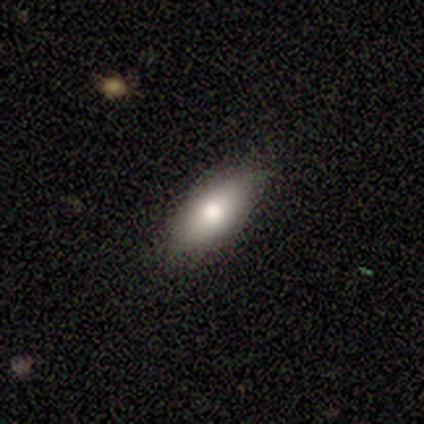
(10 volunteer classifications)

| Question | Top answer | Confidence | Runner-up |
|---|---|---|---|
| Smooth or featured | smooth | 80% | featured or disk (10%) |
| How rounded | in between | 100% | — |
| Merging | none | 100% | — |